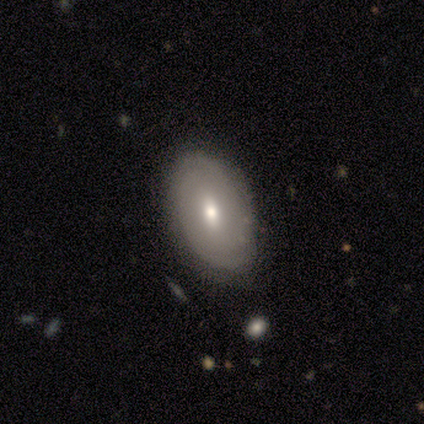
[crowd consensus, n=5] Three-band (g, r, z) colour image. It shows a smooth galaxy with no disk features (60%) that is in between round and cigar-shaped (100%). Merging: none (60%).